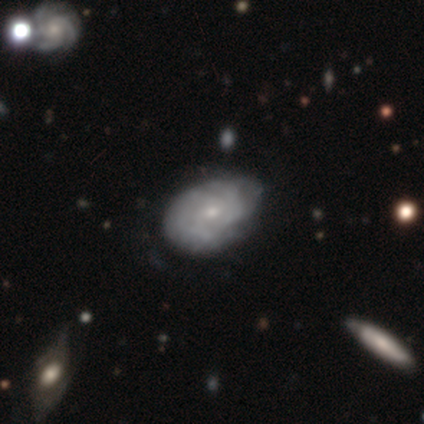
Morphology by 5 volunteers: Q: Smooth or featured?
A: featured or disk (100%)
Q: Edge-on disk?
A: no (80%); runner-up: yes (20%)
Q: Bar?
A: no (75%); runner-up: weak (25%)
Q: Spiral arms?
A: yes (50%); tied with: no (50%)
Q: Spiral winding?
A: tight (50%); tied with: loose (50%)
Q: Spiral arm count?
A: 2 (50%); tied with: can't tell (50%)
Q: Bulge size?
A: small (75%); runner-up: none (25%)
Q: Merging?
A: none (60%); runner-up: major disturbance (20%)